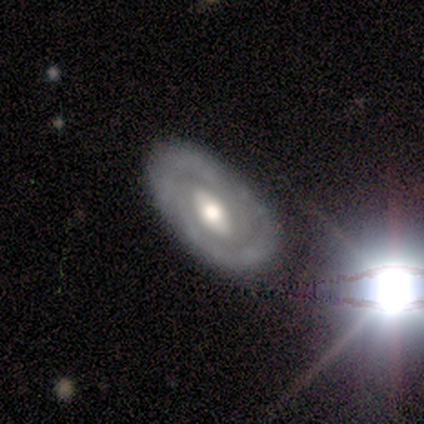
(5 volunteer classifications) A featured or disk galaxy (100%) with no bar (60%), 2 (60%) medium (60%) spiral arms (100%) and a large central bulge (60%).

Vote fractions:
- Smooth or featured? featured or disk: 100% / smooth: 0% / star or artifact: 0%
- Edge-on disk? no: 100% / yes: 0%
- Bar? no: 60% / strong: 40% / weak: 0%
- Spiral arms? yes: 100% / no: 0%
- Spiral winding? medium: 60% / tight: 40% / loose: 0%
- Spiral arm count? 2: 60% / can't tell: 40% / 1: 0% / 3: 0% / 4: 0% / more than 4: 0%
- Bulge size? large: 60% / moderate: 40% / dominant: 0% / small: 0% / none: 0%
- Merging? none: 100% / minor disturbance: 0% / major disturbance: 0% / merger: 0%